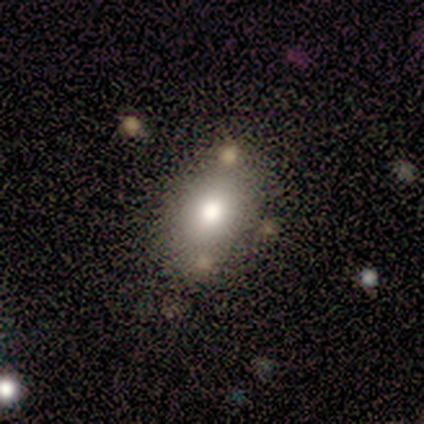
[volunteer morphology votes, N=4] smooth 75%, star or artifact 25%, featured or disk 0%. Down the decision tree: how rounded — in between (67%); merging — none (67%).